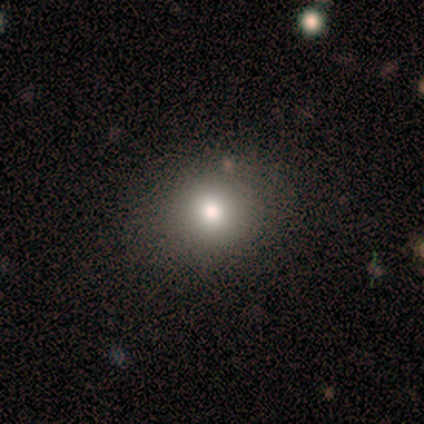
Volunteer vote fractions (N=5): Volunteers were most divided on "smooth or featured" (2-way tie): smooth: 40%, star or artifact: 40%, featured or disk: 20%; "how rounded" (2-way tie): round: 50%, in between: 50%, cigar-shaped: 0%. More confident: merging — none (100%).